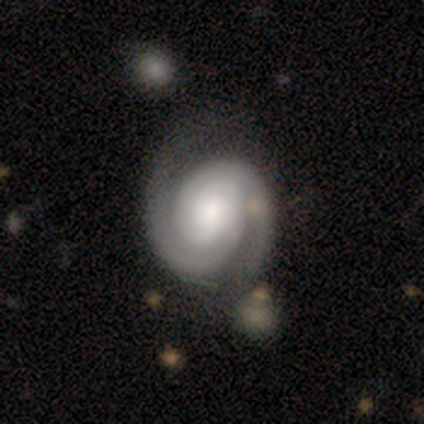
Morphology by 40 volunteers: Smooth or featured: featured or disk — 88% (smooth — 12%)
Edge-on disk: no — 100%
Bar: no — 51% (weak — 37%)
Spiral arms: yes — 97% (no — 3%)
Spiral winding: tight — 74% (medium — 21%)
Spiral arm count: 2 — 97% (can't tell — 3%)
Bulge size: moderate — 43% (large — 31%)
Merging: none — 45% (minor disturbance — 18%)